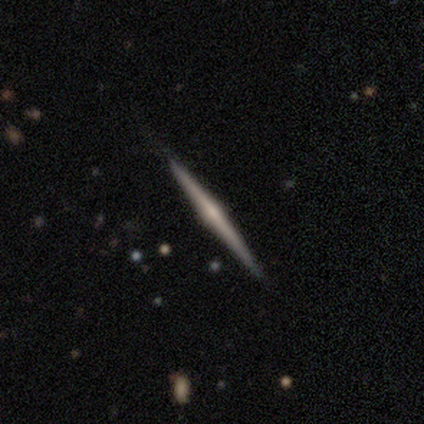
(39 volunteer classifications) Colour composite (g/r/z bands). It shows a featured or disk galaxy (79%) viewed edge-on (100%) with a rounded central bulge (65%). Merging: none (92%).